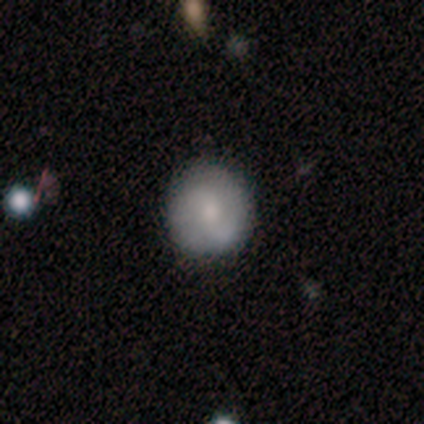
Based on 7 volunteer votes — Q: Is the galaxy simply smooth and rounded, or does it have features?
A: featured or disk — 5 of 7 (71%).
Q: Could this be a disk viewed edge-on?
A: no — 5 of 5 (100%).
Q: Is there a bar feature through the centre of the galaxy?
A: weak — 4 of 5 (80%).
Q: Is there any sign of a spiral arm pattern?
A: yes — 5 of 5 (100%).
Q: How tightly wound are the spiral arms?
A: loose — 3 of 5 (60%).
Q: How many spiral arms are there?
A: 2 — 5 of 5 (100%).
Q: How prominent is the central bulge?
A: small — 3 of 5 (60%).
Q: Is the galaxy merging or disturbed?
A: none — 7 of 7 (100%).